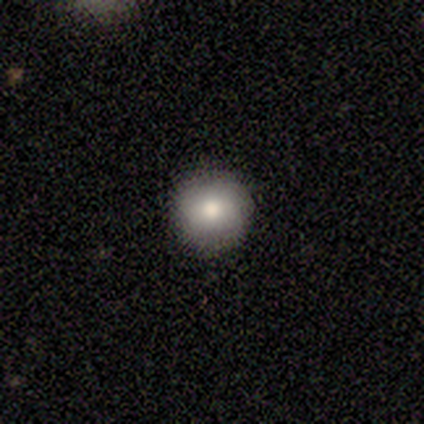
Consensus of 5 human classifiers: This appears to be a smooth galaxy with no disk features (80%) that is round (100%). Merging: none (100%).